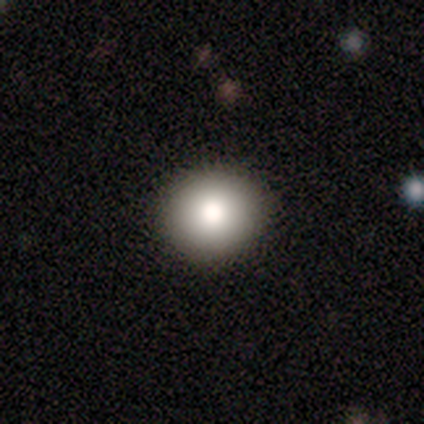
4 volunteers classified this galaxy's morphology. smooth-or-featured: smooth: 50% (tied) | featured or disk: 50% (tied) | star or artifact: 0%
  how-rounded: round: 100% | in between: 0% | cigar-shaped: 0%
  merging: none: 50% (tied) | minor disturbance: 50% (tied) | major disturbance: 0% | merger: 0%